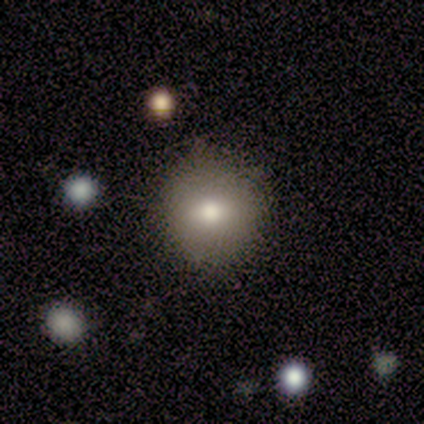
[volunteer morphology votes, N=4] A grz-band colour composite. It shows a smooth galaxy with no disk features (50%) that is round (100%). Merging: none (67%).